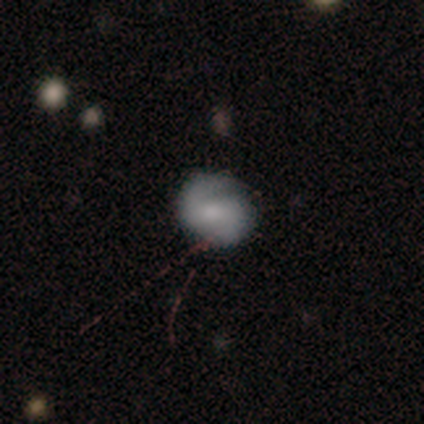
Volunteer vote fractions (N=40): This appears to be a featured or disk galaxy (57%) with a weak bar (43%), 2 (100%) tight (43%, tied with medium) spiral arms (91%) and a moderate central bulge (43%). Merging: none (67%).